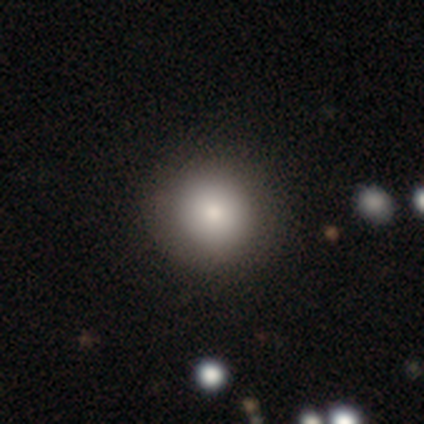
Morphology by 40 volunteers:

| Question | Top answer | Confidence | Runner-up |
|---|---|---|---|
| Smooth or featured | smooth | 82% | featured or disk (12%) |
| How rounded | round | 91% | in between (9%) |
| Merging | none | 74% | minor disturbance (3%) |